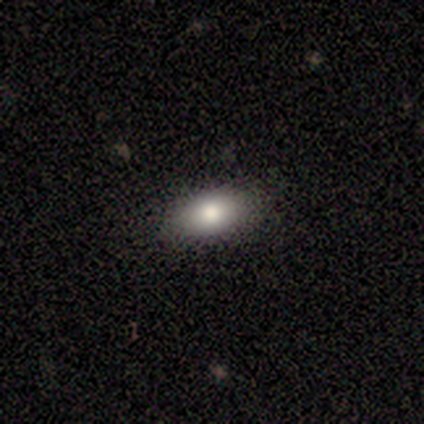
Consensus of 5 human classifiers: A smooth galaxy with no disk features (100%) that is in between round and cigar-shaped (100%).

Vote fractions:
- Smooth or featured? smooth: 100% / featured or disk: 0% / star or artifact: 0%
- How rounded? in between: 100% / round: 0% / cigar-shaped: 0%
- Merging? none: 100% / minor disturbance: 0% / major disturbance: 0% / merger: 0%